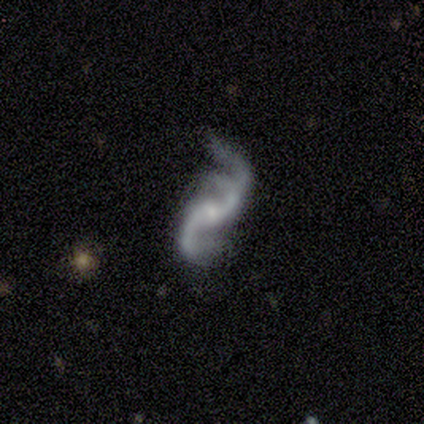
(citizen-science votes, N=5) Smooth or featured? 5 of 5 (100%) said featured or disk. Edge-on disk? 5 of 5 (100%) said no. Bar? 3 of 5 (60%) said no. Spiral arms? 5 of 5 (100%) said yes. Spiral winding? 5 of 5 (100%) said loose. Spiral arm count? 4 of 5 (80%) said 2. Bulge size? 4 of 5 (80%) said small. Merging? 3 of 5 (60%) said minor disturbance.